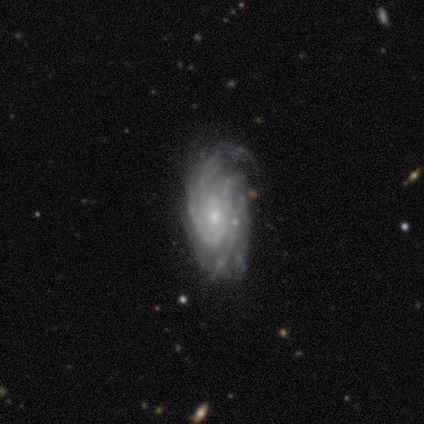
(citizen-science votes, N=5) Morphology: type=featured or disk (80%); edge-on=no (100%); bar=no (100%); spiral arms=yes (100%); winding=tight (75%); arm count=more than 4 (50%); bulge=small (75%); merging=minor disturbance (75%).